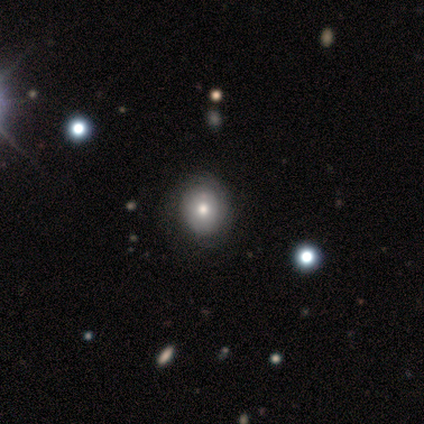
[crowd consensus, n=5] Morphology: type=smooth (40%, tied with star or artifact); roundness=round (100%); merging=none (67%).